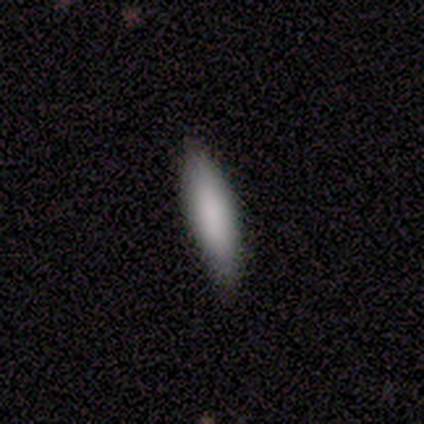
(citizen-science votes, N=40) Smooth or featured? 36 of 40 (90%) said smooth. How rounded? 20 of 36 (56%) said cigar-shaped. Merging? 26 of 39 (67%) said none.